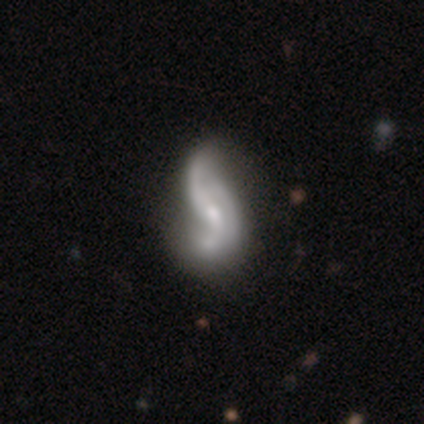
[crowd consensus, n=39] Smooth or featured: featured or disk — 77% (smooth — 18%)
Edge-on disk: no — 97% (yes — 3%)
Bar: no — 52% (weak — 45%)
Spiral arms: yes — 86% (no — 14%)
Spiral winding: loose — 76% (medium — 20%)
Spiral arm count: 2 — 56% (3 — 20%)
Bulge size: moderate — 52% (small — 38%)
Merging: major disturbance — 22% (minor disturbance — 11%)